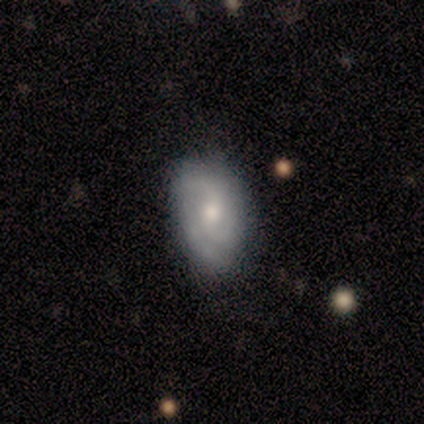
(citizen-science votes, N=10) Smooth or featured? featured or disk (60%)
Edge-on disk? no (100%)
Bar? no (83%)
Spiral arms? yes (83%)
Spiral winding? tight (80%)
Spiral arm count? 3 (60%)
Bulge size? moderate (67%)
Merging? none (78%)